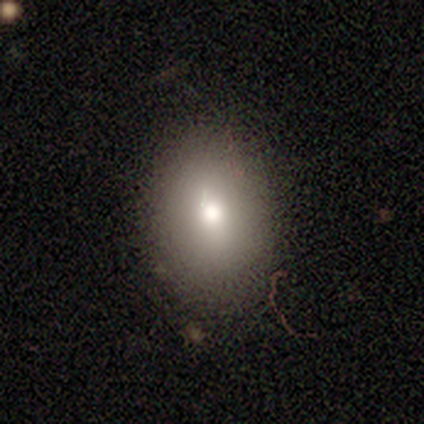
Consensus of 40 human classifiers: Q: Smooth or featured?
A: smooth (82%); runner-up: star or artifact (10%)
Q: How rounded?
A: in between (70%); runner-up: round (27%)
Q: Merging?
A: none (61%); runner-up: minor disturbance (14%)